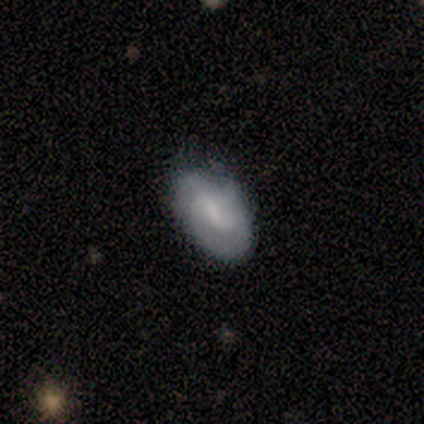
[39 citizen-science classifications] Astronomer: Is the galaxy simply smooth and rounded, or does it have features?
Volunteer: smooth — 51% (runner-up: featured or disk, 38%).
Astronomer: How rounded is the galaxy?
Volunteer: in between — 85%.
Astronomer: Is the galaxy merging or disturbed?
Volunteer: none — 74%.